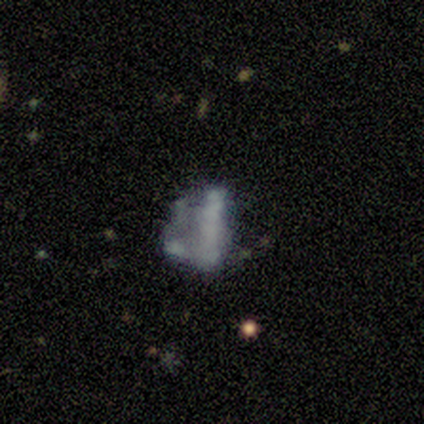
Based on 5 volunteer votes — Q: Smooth or featured?
A: smooth (40%); tied with: featured or disk (40%)
Q: How rounded?
A: round (50%); tied with: in between (50%)
Q: Merging?
A: minor disturbance (50%); runner-up: major disturbance (25%)